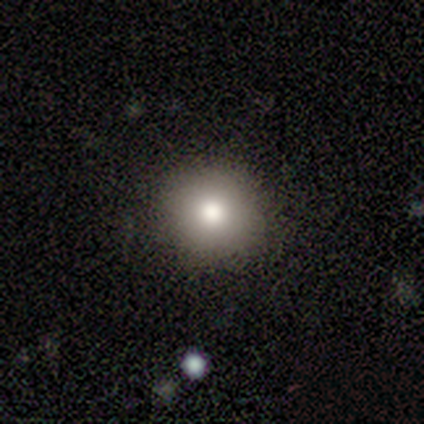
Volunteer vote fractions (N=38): This is likely a smooth galaxy (76%). How rounded: clearly round (97%). Merging: clearly none (91%).